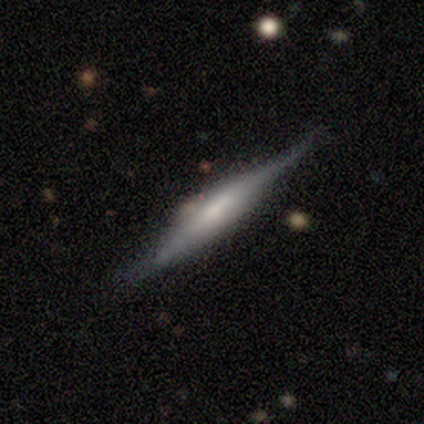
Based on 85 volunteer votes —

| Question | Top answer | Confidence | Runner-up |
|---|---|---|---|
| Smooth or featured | featured or disk | 74% | smooth (18%) |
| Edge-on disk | yes | 92% | no (8%) |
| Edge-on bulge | boxy | 50% | rounded (31%) |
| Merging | none | 63% | minor disturbance (31%) |